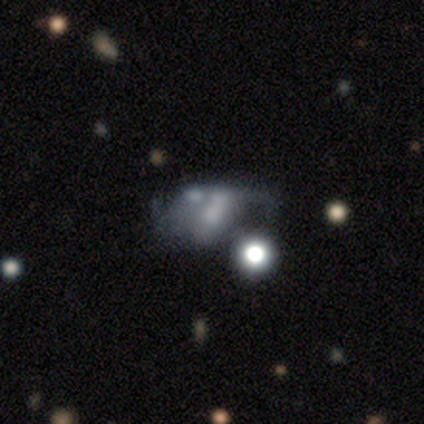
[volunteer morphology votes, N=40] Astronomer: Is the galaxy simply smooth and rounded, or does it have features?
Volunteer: featured or disk — 50% (runner-up: smooth, 30%).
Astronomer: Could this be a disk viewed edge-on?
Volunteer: no — 90%.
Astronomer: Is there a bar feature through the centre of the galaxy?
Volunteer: no — 83%.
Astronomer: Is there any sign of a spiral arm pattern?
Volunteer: no — 83%.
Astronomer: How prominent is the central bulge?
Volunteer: none — 61%.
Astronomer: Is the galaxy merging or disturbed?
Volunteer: merger — 28% (runner-up: major disturbance, 22%).